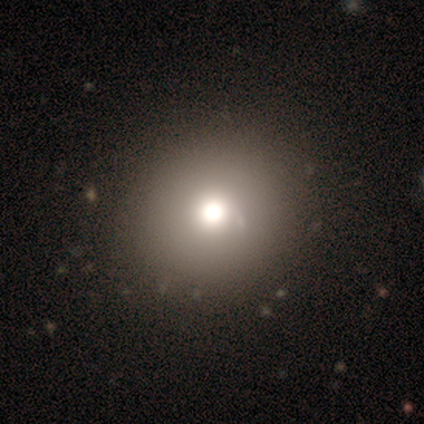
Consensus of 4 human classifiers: Smooth or featured? smooth (75%)
How rounded? round (100%)
Merging? minor disturbance (67%)